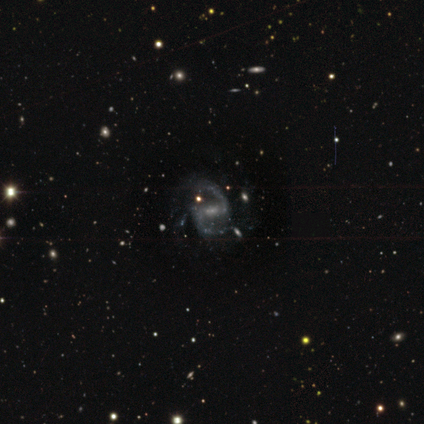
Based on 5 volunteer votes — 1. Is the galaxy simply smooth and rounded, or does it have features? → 80% featured or disk, 20% star or artifact, 0% smooth.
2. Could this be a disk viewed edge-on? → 100% no, 0% yes.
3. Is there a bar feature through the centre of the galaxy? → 50% strong (tied), 50% weak (tied), 0% no.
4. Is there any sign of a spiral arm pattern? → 100% yes, 0% no.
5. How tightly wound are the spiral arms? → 75% loose, 25% medium, 0% tight.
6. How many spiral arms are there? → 100% 2, 0% 1, 0% 3, 0% 4, 0% more than 4, 0% can't tell.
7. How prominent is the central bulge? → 50% moderate (tied), 50% small (tied), 0% dominant, 0% large, 0% none.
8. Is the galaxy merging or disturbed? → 100% none, 0% minor disturbance, 0% major disturbance, 0% merger.